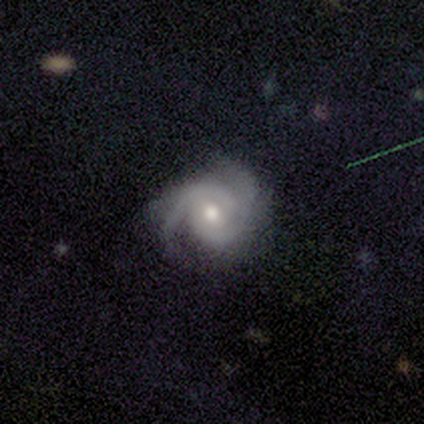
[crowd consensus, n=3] Smooth or featured: featured or disk — 67% (smooth — 33%)
Edge-on disk: no — 100%
Bar: weak — 100%
Spiral arms: yes — 100%
Spiral winding: medium — 100%
Spiral arm count: 2 — 100%
Bulge size: moderate — 100%
Merging: none — 67% (major disturbance — 33%)